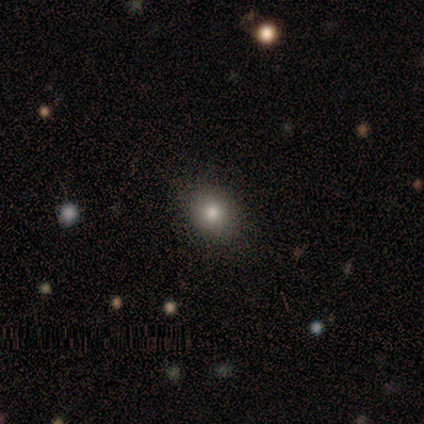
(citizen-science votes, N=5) A smooth galaxy with no disk features (100%) that is round (60%). Merging: none (100%).